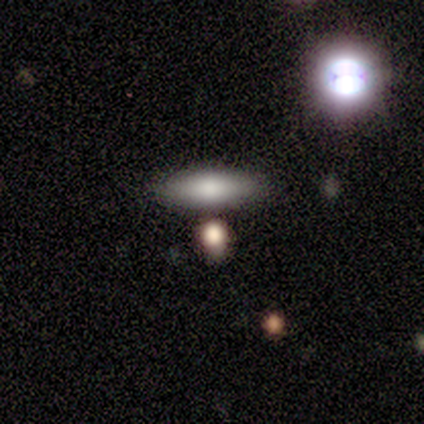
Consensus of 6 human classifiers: smooth_or_featured: smooth (p=1.00)
how_rounded: in between (p=0.67) [alt: cigar-shaped p=0.33]
merging: none (p=0.83) [alt: minor disturbance p=0.17]